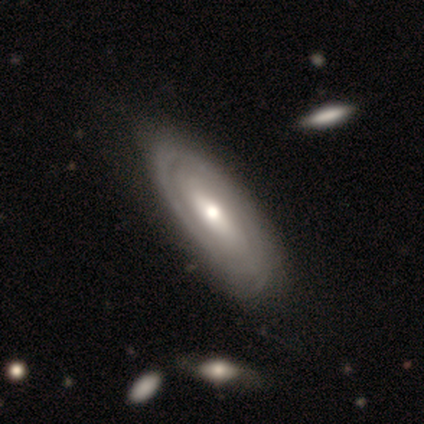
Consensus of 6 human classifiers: Smooth or featured?
  - smooth: 50% * (tied)
  - featured or disk: 50% * (tied)
  - star or artifact: 0%
How rounded?
  - in between: 100% *
  - round: 0%
  - cigar-shaped: 0%
Merging?
  - none: 67% *
  - minor disturbance: 33%
  - major disturbance: 0%
  - merger: 0%